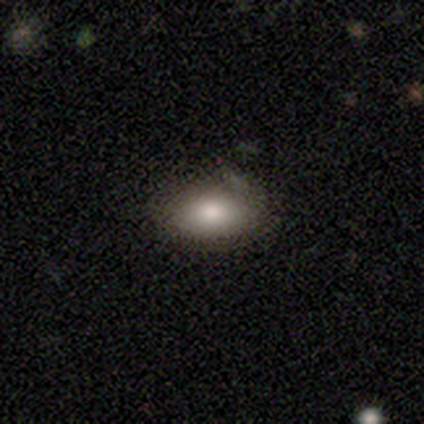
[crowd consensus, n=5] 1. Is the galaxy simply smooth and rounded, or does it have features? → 100% smooth, 0% featured or disk, 0% star or artifact.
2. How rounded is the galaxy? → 80% in between, 20% round, 0% cigar-shaped.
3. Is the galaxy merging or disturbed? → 80% none, 20% minor disturbance, 0% major disturbance, 0% merger.